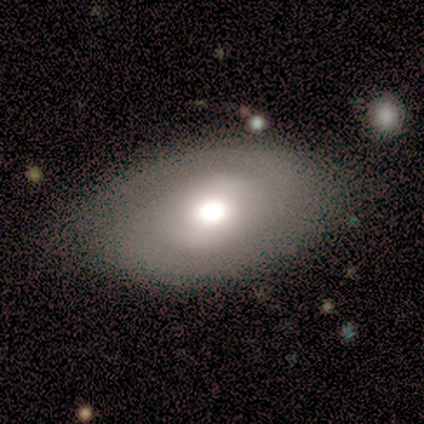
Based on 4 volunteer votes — Q: Smooth or featured?
A: smooth (75%); runner-up: star or artifact (25%)
Q: How rounded?
A: in between (100%)
Q: Merging?
A: none (100%)